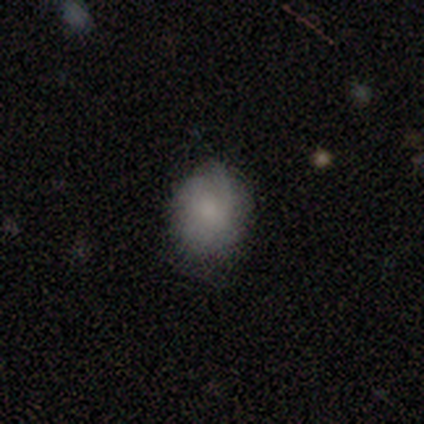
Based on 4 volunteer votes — This is likely a smooth galaxy (75%). How rounded: likely round (67%). Merging: clearly none (100%).